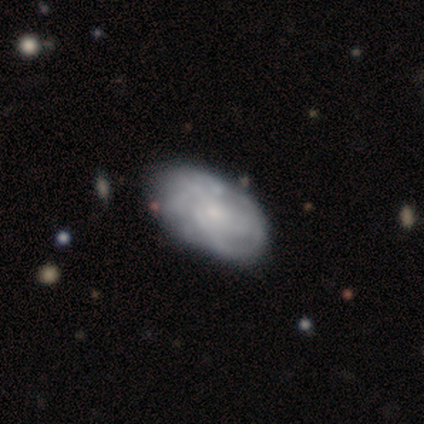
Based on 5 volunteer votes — smooth-or-featured: featured or disk: 60% | star or artifact: 40% | smooth: 0%
  disk-edge-on: no: 100% | yes: 0%
    bar: no: 100% | strong: 0% | weak: 0%
    has-spiral-arms: yes: 100% | no: 0%
      spiral-winding: medium: 67% | tight: 33% | loose: 0%
      spiral-arm-count: can't tell: 100% | 1: 0% | 2: 0% | 3: 0% | 4: 0% | more than 4: 0%
    bulge-size: small: 67% | none: 33% | dominant: 0% | large: 0% | moderate: 0%
  merging: none: 100% | minor disturbance: 0% | major disturbance: 0% | merger: 0%